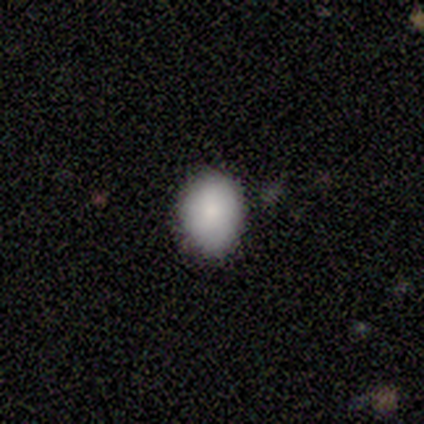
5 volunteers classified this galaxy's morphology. type=smooth (100%); roundness=in between (60%); merging=none (80%).